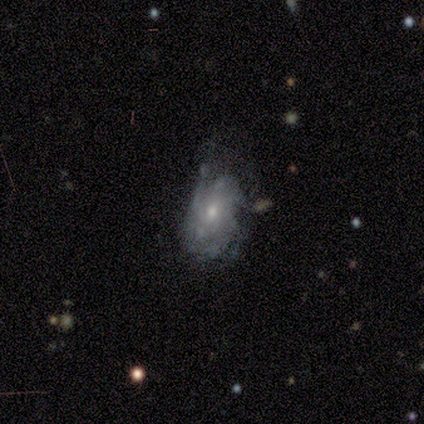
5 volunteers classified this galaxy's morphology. This appears to be a featured or disk galaxy (80%) with no bar (75%), tight (67%) spiral arms (75%) and a small central bulge (75%). Merging: none (40%, tied with minor disturbance).